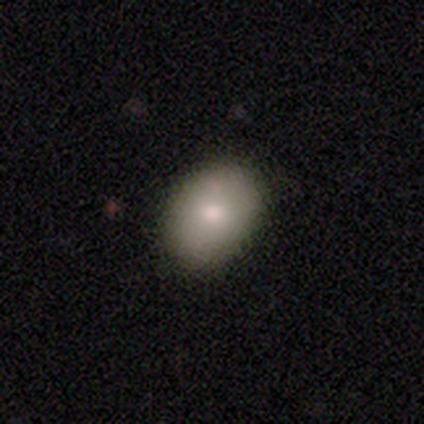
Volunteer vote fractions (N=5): This appears to be a smooth galaxy with no disk features (100%) that is in between round and cigar-shaped (80%). Merging: none (100%).